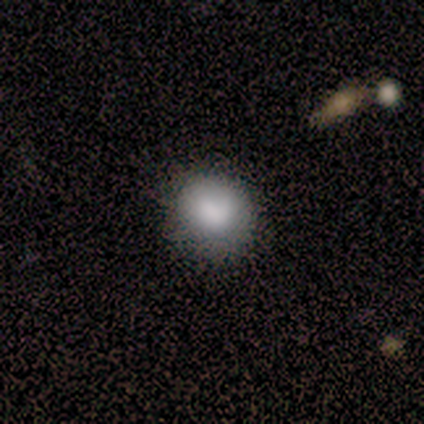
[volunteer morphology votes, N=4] Volunteers were most divided on "how rounded" (2-way tie): round: 50%, in between: 50%, cigar-shaped: 0%. More confident: smooth or featured — smooth (100%); merging — none (100%).